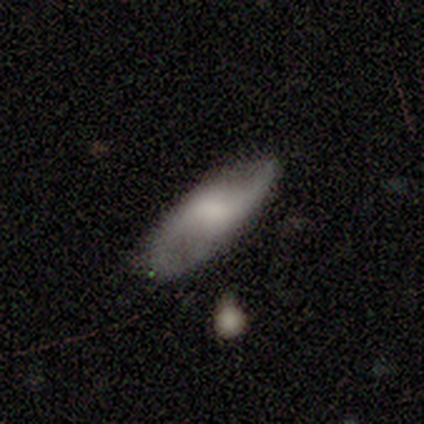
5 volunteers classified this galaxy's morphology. Overall: smooth (80%). How rounded: in between (100%). Merging: none (100%).